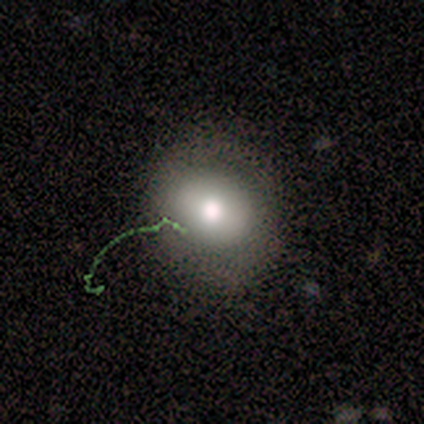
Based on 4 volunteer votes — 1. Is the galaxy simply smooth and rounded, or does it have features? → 50% star or artifact, 25% smooth, 25% featured or disk.